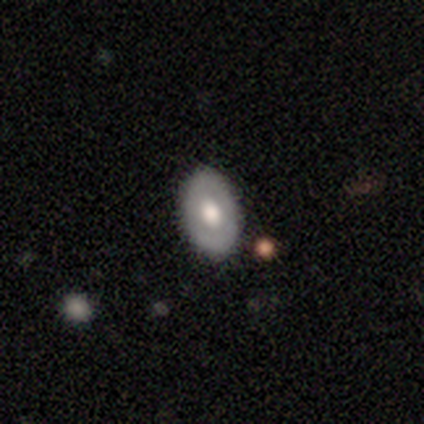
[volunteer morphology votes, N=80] Q: Smooth or featured?
A: smooth (52%); runner-up: featured or disk (41%)
Q: How rounded?
A: in between (95%); runner-up: round (5%)
Q: Merging?
A: none (41%); runner-up: minor disturbance (7%)